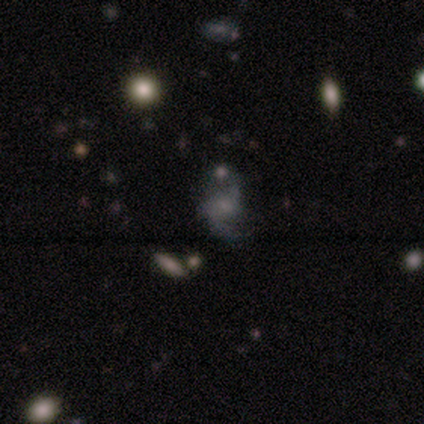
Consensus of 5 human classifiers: featured or disk 60%, smooth 40%, star or artifact 0%. Down the decision tree: edge-on disk — no (100%); bar — weak (67%); spiral arms — yes (100%); spiral arm count — 2 (100%); spiral winding — medium (67%); bulge size — none (67%); merging — none (60%).